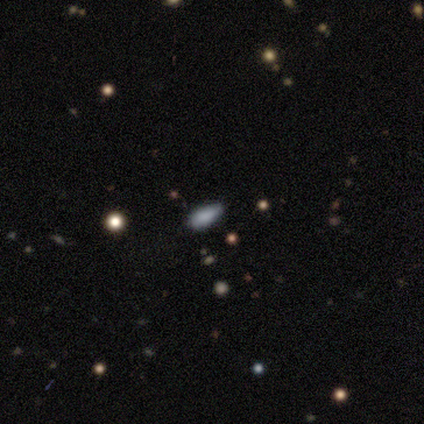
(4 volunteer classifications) smooth_or_featured: smooth (p=0.50) [alt: featured or disk p=0.25]
how_rounded: in between (p=0.50) [tied with: cigar-shaped p=0.50]
merging: none (p=0.33) [tied with: minor disturbance p=0.33, major disturbance p=0.33]